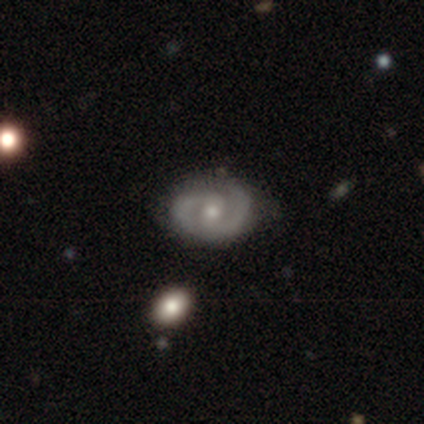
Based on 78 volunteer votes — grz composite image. It shows a featured or disk galaxy (91%) with a weak bar (49%), 2 (95%) tight (53%) spiral arms (93%) and a moderate central bulge (56%). Merging: none (39%).